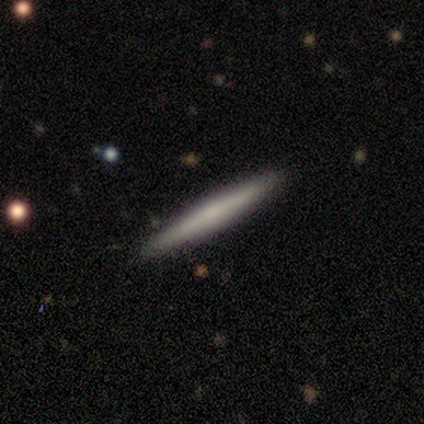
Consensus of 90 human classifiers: Smooth or featured?
  - smooth: 56% *
  - featured or disk: 41%
  - star or artifact: 3%
How rounded?
  - cigar-shaped: 98% *
  - in between: 2%
  - round: 0%
Merging?
  - none: 92% *
  - minor disturbance: 7%
  - major disturbance: 1%
  - merger: 0%